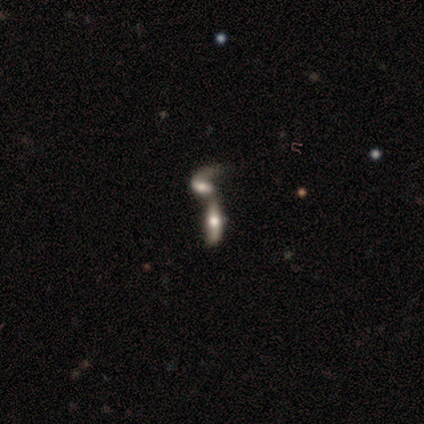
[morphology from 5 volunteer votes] Q: Smooth or featured?
A: featured or disk (80%); runner-up: smooth (20%)
Q: Edge-on disk?
A: yes (50%); tied with: no (50%)
Q: Edge-on bulge?
A: rounded (100%)
Q: Merging?
A: merger (100%)